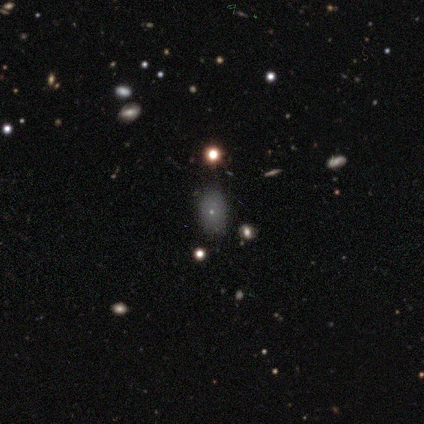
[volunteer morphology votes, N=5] Q: Smooth or featured?
A: smooth (40%); tied with: star or artifact (40%)
Q: How rounded?
A: in between (100%)
Q: Merging?
A: none (100%)